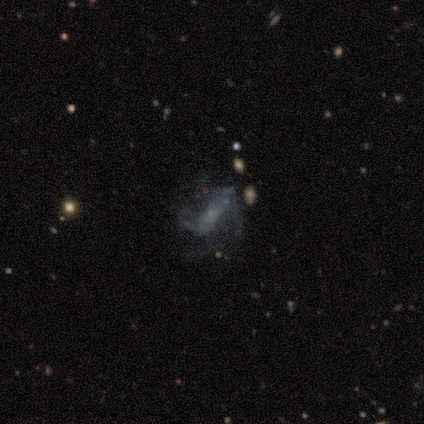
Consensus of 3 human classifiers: Morphology: type=featured or disk (67%); edge-on=no (100%); bar=weak (50%, tied with no); spiral arms=yes (50%, tied with no); winding=medium (100%); arm count=2 (100%); bulge=small (50%, tied with none); merging=none (100%).